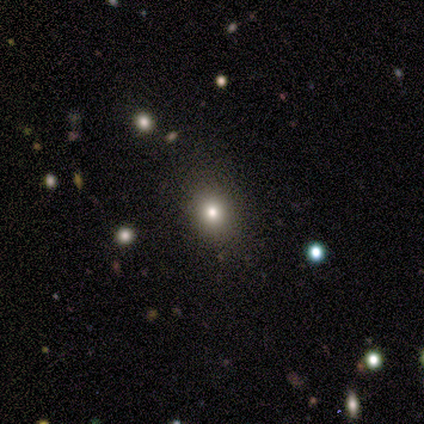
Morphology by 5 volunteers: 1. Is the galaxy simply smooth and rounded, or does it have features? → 80% smooth, 20% star or artifact, 0% featured or disk.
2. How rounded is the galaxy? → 50% round (tied), 50% in between (tied), 0% cigar-shaped.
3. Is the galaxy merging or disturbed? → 75% none, 25% minor disturbance, 0% major disturbance, 0% merger.